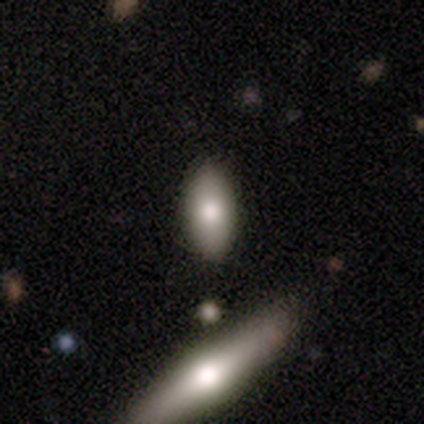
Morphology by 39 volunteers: A smooth galaxy with no disk features (74%) that is in between round and cigar-shaped (93%). Merging: none (75%).